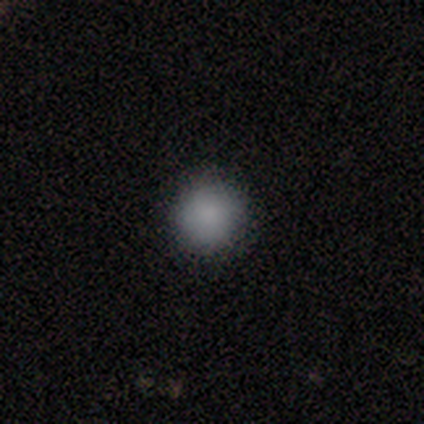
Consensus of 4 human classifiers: A smooth galaxy with no disk features (100%) that is round (100%). Merging: none (100%).